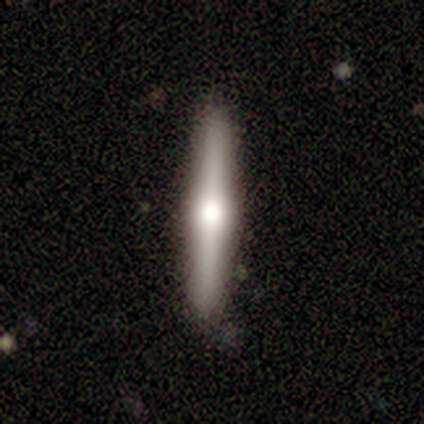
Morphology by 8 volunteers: Smooth or featured?
  - featured or disk: 62% *
  - smooth: 38%
  - star or artifact: 0%
Edge-on disk?
  - yes: 100% *
  - no: 0%
Edge-on bulge?
  - rounded: 100% *
  - boxy: 0%
  - none: 0%
Merging?
  - none: 88% *
  - minor disturbance: 12%
  - major disturbance: 0%
  - merger: 0%